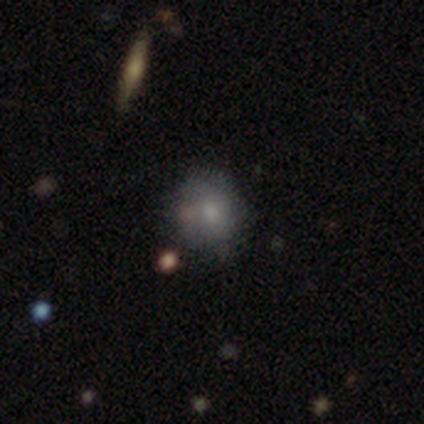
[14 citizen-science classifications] Smooth or featured? smooth (79%)
How rounded? in between (55%)
Merging? none (71%)